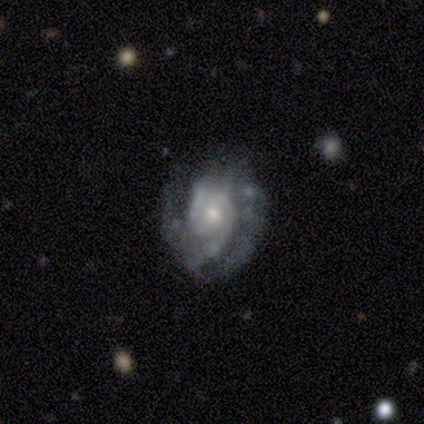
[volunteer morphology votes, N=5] featured or disk 100%, smooth 0%, star or artifact 0%. Down the decision tree: edge-on disk — no (80%); bar — no (100%); spiral arms — yes (100%); spiral arm count — 2 (50%); spiral winding — tight (75%); bulge size — small (50%); merging — none (60%).